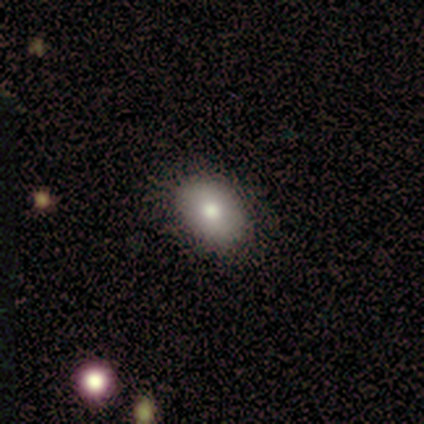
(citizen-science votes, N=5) This appears to be a smooth galaxy with no disk features (80%) that is in between round and cigar-shaped (100%). Merging: none (80%).